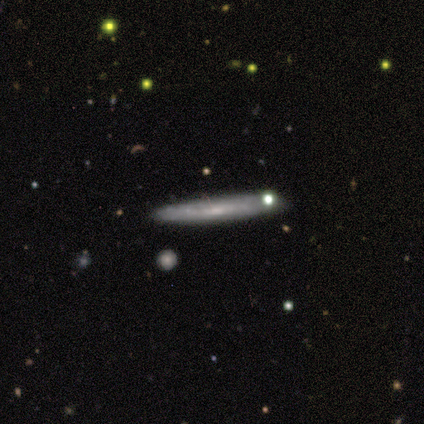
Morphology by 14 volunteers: smooth-or-featured: featured or disk: 71% | smooth: 29% | star or artifact: 0%
  disk-edge-on: yes: 70% | no: 30%
    edge-on-bulge: none: 86% | rounded: 14% | boxy: 0%
  merging: none: 79% | minor disturbance: 21% | major disturbance: 0% | merger: 0%